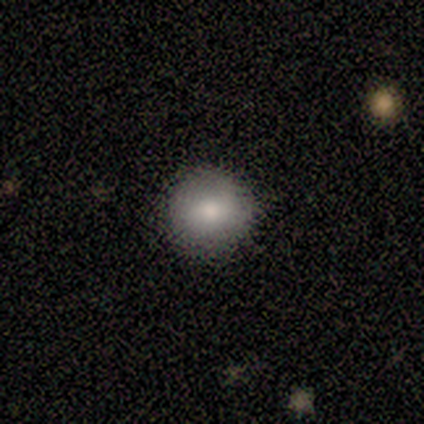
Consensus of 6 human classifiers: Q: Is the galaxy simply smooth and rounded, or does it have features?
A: smooth — 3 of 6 (50%).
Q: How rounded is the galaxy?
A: round — 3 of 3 (100%).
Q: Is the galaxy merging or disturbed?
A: none — 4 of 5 (80%).